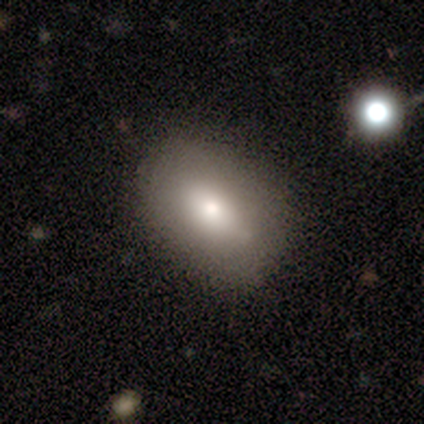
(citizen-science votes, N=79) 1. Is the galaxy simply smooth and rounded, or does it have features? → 75% smooth, 19% featured or disk, 6% star or artifact.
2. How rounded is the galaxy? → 83% in between, 17% round, 0% cigar-shaped.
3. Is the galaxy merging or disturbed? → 49% none, 3% merger, 1% minor disturbance, 1% major disturbance.